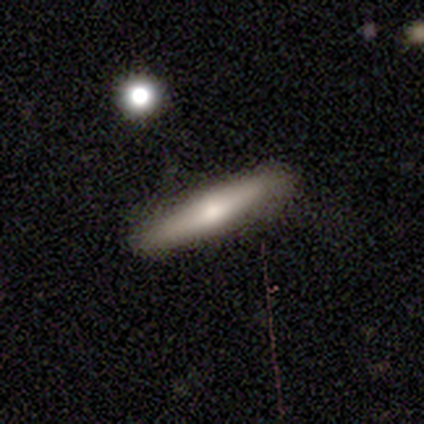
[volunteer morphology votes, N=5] Smooth or featured?
  - featured or disk: 80% *
  - star or artifact: 20%
  - smooth: 0%
Edge-on disk?
  - yes: 100% *
  - no: 0%
Edge-on bulge?
  - rounded: 100% *
  - boxy: 0%
  - none: 0%
Merging?
  - none: 100% *
  - minor disturbance: 0%
  - major disturbance: 0%
  - merger: 0%